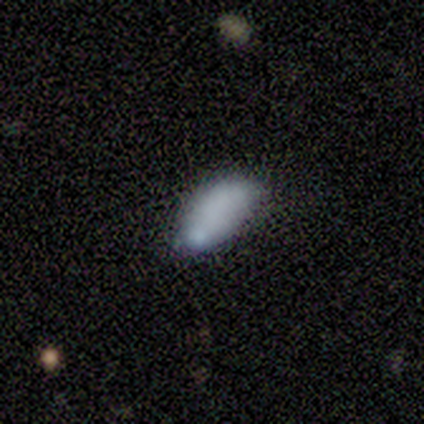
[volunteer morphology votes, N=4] Smooth or featured?
  - smooth: 75% *
  - featured or disk: 25%
  - star or artifact: 0%
How rounded?
  - in between: 100% *
  - round: 0%
  - cigar-shaped: 0%
Merging?
  - minor disturbance: 50% *
  - none: 25%
  - major disturbance: 25%
  - merger: 0%